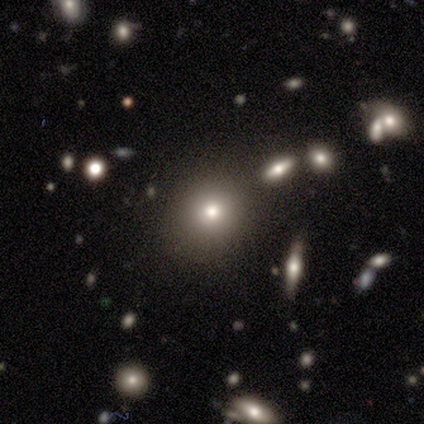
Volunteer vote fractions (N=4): This is possibly a smooth galaxy (50%, tied with star or artifact). How rounded: clearly round (100%). Merging: clearly none (100%).